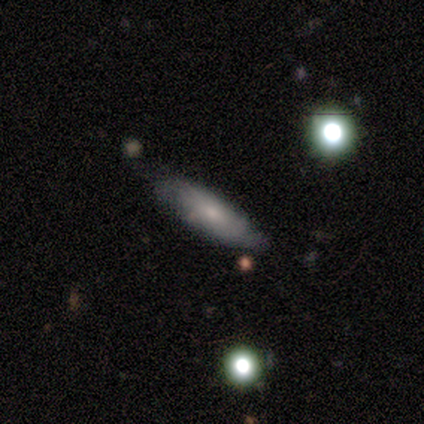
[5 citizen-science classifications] Smooth or featured?
  - smooth: 100% *
  - featured or disk: 0%
  - star or artifact: 0%
How rounded?
  - cigar-shaped: 60% *
  - in between: 40%
  - round: 0%
Merging?
  - minor disturbance: 60% *
  - none: 40%
  - major disturbance: 0%
  - merger: 0%